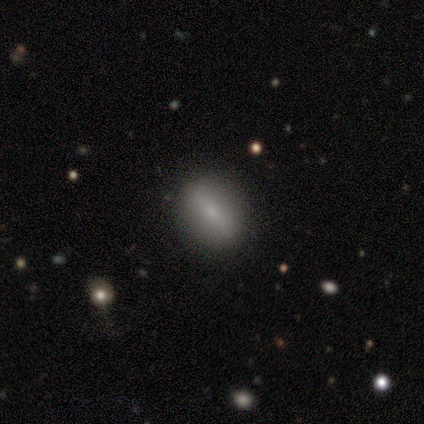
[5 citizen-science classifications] Overall: smooth (80%). How rounded: in between (75%). Merging: none (80%).